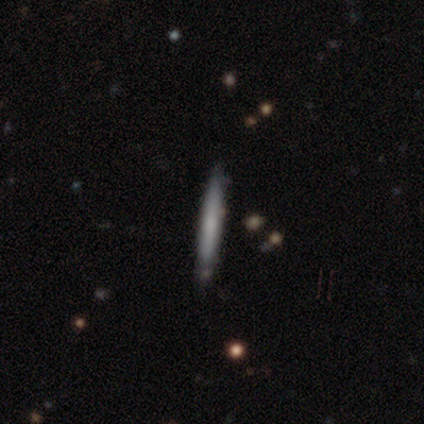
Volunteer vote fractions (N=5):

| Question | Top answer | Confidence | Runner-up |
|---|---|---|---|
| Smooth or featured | smooth | 60% | featured or disk (40%) |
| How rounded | cigar-shaped | 100% | — |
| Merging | none | 100% | — |